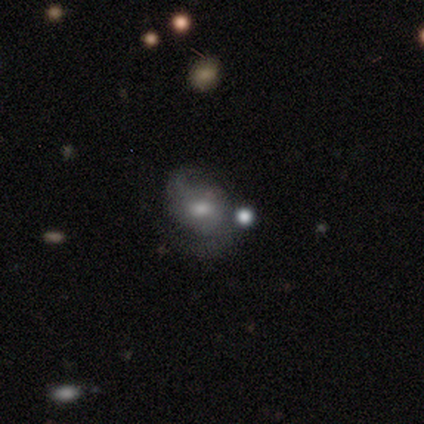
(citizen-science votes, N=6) This is clearly a featured or disk galaxy (83%). It is clearly not viewed edge-on (100%). Bar: clearly no (80%). Spiral arm pattern: clearly yes (100%). Spiral arm count: clearly 2 (100%). Spiral winding: likely medium (60%). Central bulge: likely small (60%). Merging: likely none (67%).